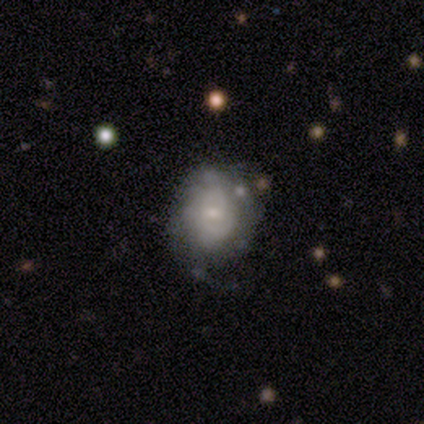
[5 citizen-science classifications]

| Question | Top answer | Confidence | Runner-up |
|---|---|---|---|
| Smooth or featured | featured or disk | 60% | smooth (40%) |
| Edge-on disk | no | 100% | — |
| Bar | strong | 33% | tied: weak (33%), no (33%) |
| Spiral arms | yes | 67% | no (33%) |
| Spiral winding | tight | 50% | tied: loose (50%) |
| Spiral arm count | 2 | 50% | tied: 3 (50%) |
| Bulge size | small | 67% | moderate (33%) |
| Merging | none | 60% | minor disturbance (40%) |